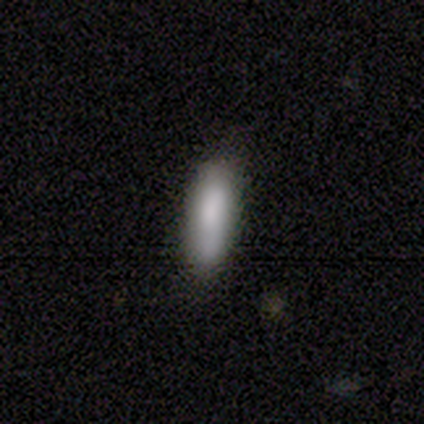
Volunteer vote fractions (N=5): A smooth galaxy with no disk features (80%) that is in between round and cigar-shaped (50%, tied with cigar-shaped).

Vote fractions:
- Smooth or featured? smooth: 80% / featured or disk: 20% / star or artifact: 0%
- How rounded? in between: 50% (tied) / cigar-shaped: 50% (tied) / round: 0%
- Merging? none: 80% / minor disturbance: 20% / major disturbance: 0% / merger: 0%